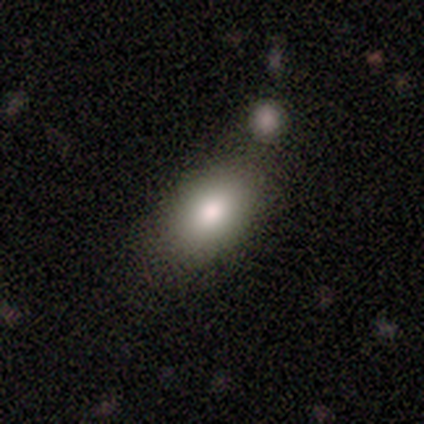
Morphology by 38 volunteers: A smooth galaxy with no disk features (95%) that is in between round and cigar-shaped (92%).

Vote fractions:
- Smooth or featured? smooth: 95% / featured or disk: 3% / star or artifact: 3%
- How rounded? in between: 92% / round: 8% / cigar-shaped: 0%
- Merging? none: 38% / merger: 16% / minor disturbance: 8% / major disturbance: 5%